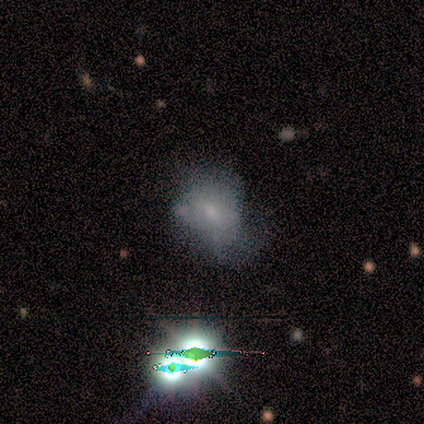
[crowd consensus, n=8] Smooth or featured? smooth (62%)
How rounded? in between (80%)
Merging? major disturbance (50%)